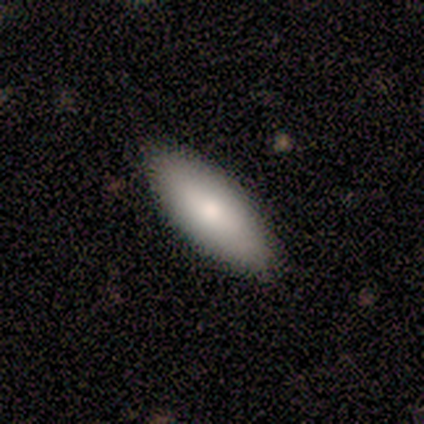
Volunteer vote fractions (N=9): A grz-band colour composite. It shows a smooth galaxy with no disk features (56%) that is in between round and cigar-shaped (60%). Merging: none (100%).